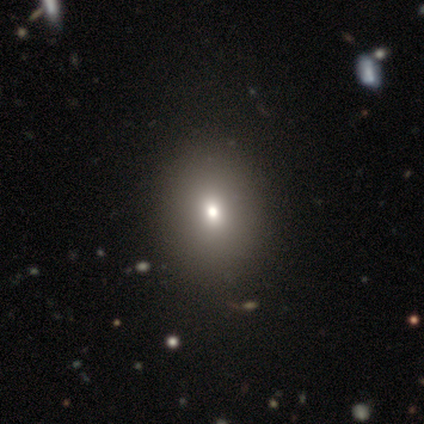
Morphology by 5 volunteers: Smooth or featured?
  - smooth: 60% *
  - featured or disk: 20%
  - star or artifact: 20%
How rounded?
  - round: 100% *
  - in between: 0%
  - cigar-shaped: 0%
Merging?
  - none: 75% *
  - minor disturbance: 25%
  - major disturbance: 0%
  - merger: 0%